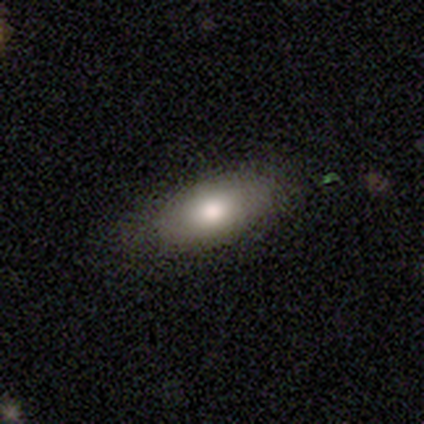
Smooth or featured?
  - smooth: 75% *
  - featured or disk: 25%
  - star or artifact: 0%
How rounded?
  - in between: 100% *
  - round: 0%
  - cigar-shaped: 0%
Merging?
  - none: 100% *
  - minor disturbance: 0%
  - major disturbance: 0%
  - merger: 0%